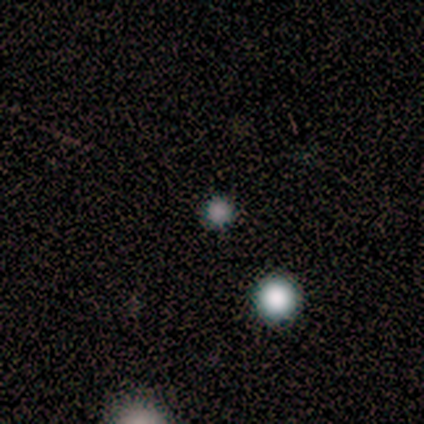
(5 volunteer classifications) Morphology: type=smooth (80%); roundness=round (100%); merging=none (100%).